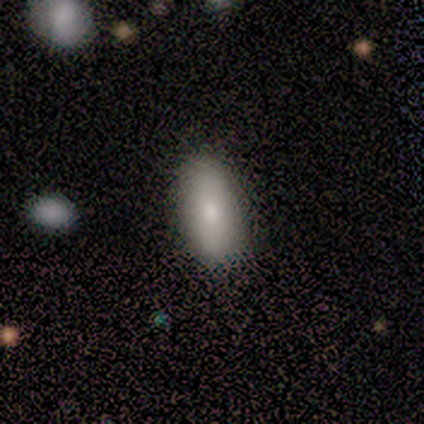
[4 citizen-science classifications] Smooth or featured? 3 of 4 (75%) said smooth. How rounded? 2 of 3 (67%) said in between. Merging? 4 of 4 (100%) said none.